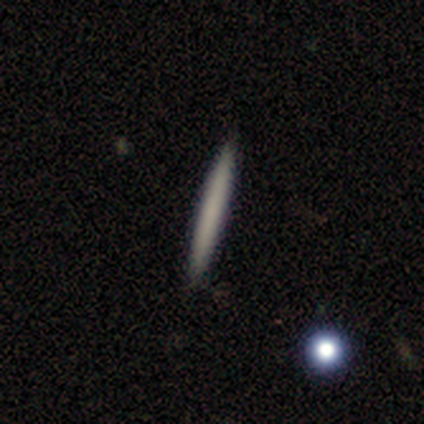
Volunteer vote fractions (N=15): Smooth or featured?
  - smooth: 53% *
  - featured or disk: 47%
  - star or artifact: 0%
How rounded?
  - cigar-shaped: 100% *
  - round: 0%
  - in between: 0%
Merging?
  - none: 93% *
  - minor disturbance: 7%
  - major disturbance: 0%
  - merger: 0%